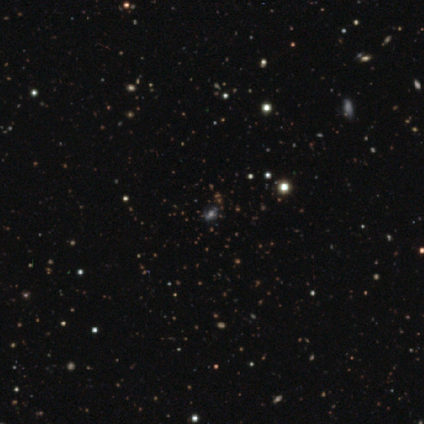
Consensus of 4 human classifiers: Q: Smooth or featured?
A: smooth (50%); tied with: featured or disk (50%)
Q: How rounded?
A: round (100%)
Q: Merging?
A: none (100%)